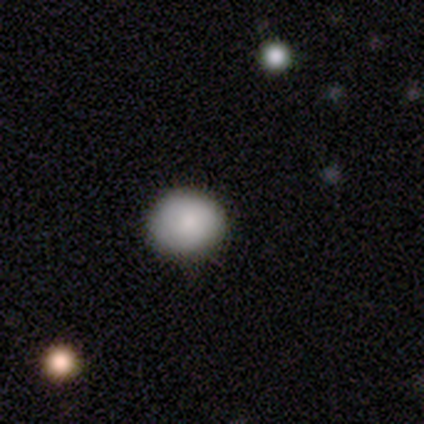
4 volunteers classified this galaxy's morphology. A smooth galaxy with no disk features (100%) that is round (50%, tied with in between). Merging: none (100%).